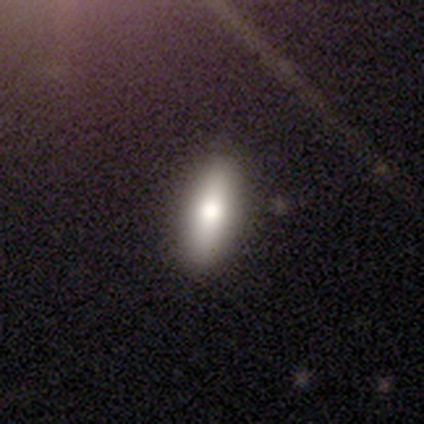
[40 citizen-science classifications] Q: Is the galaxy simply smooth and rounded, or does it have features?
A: smooth — 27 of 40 (68%).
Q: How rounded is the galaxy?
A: cigar-shaped — 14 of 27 (52%).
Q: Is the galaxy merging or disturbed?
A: none — 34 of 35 (97%).